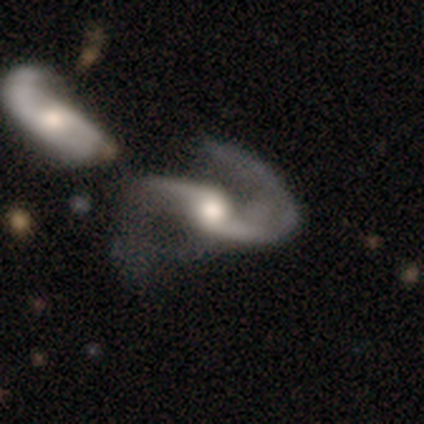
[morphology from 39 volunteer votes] smooth-or-featured: featured or disk: 92% | star or artifact: 5% | smooth: 3%
  disk-edge-on: no: 92% | yes: 8%
    bar: no: 48% | weak: 33% | strong: 18%
    has-spiral-arms: yes: 100% | no: 0%
      spiral-winding: medium: 48% (tied) | loose: 48% (tied) | tight: 3%
      spiral-arm-count: 2: 91% | 1: 9% | 3: 0% | 4: 0% | more than 4: 0% | can't tell: 0%
    bulge-size: moderate: 61% | large: 24% | small: 15% | dominant: 0% | none: 0%
  merging: major disturbance: 35% | merger: 32% | none: 30% | minor disturbance: 3%